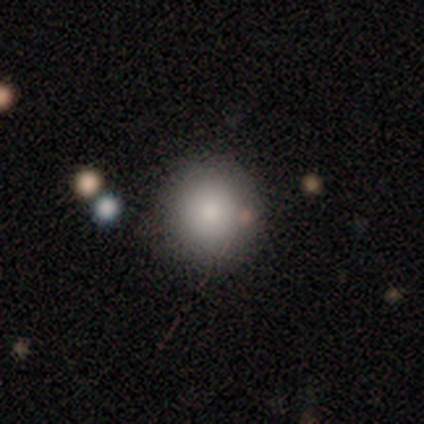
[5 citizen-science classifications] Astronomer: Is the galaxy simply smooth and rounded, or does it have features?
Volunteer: smooth — 40%, tied with featured or disk at 40%.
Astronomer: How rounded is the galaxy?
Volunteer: round — 100%.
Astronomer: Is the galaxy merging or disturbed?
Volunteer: none — 100%.